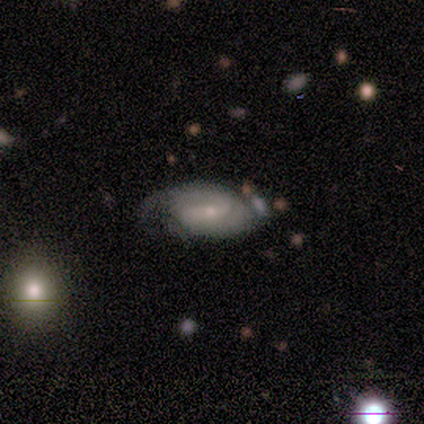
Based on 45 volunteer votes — Q: Smooth or featured?
A: featured or disk (69%); runner-up: smooth (29%)
Q: Edge-on disk?
A: no (94%); runner-up: yes (6%)
Q: Bar?
A: no (45%); runner-up: weak (41%)
Q: Spiral arms?
A: yes (90%); runner-up: no (10%)
Q: Spiral winding?
A: tight (54%); runner-up: medium (31%)
Q: Spiral arm count?
A: 2 (50%); runner-up: can't tell (31%)
Q: Bulge size?
A: small (79%); runner-up: moderate (21%)
Q: Merging?
A: none (61%); runner-up: minor disturbance (23%)